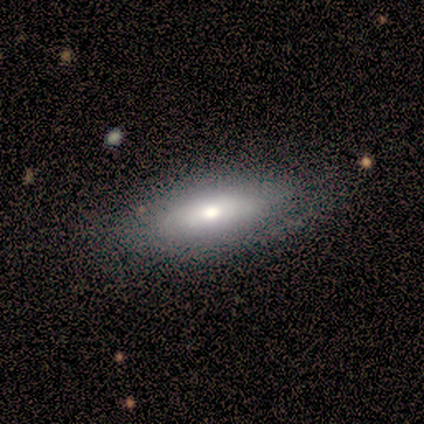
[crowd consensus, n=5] Smooth or featured? featured or disk (80%)
Edge-on disk? no (75%)
Bar? no (67%)
Spiral arms? no (67%)
Bulge size? large (67%)
Merging? none (60%)